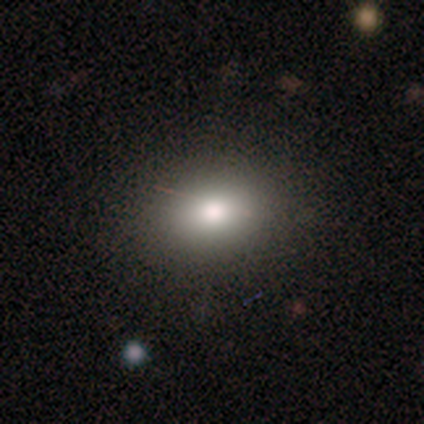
Smooth or featured?
  - smooth: 71% *
  - featured or disk: 29%
  - star or artifact: 0%
How rounded?
  - in between: 100% *
  - round: 0%
  - cigar-shaped: 0%
Merging?
  - none: 100% *
  - minor disturbance: 0%
  - major disturbance: 0%
  - merger: 0%